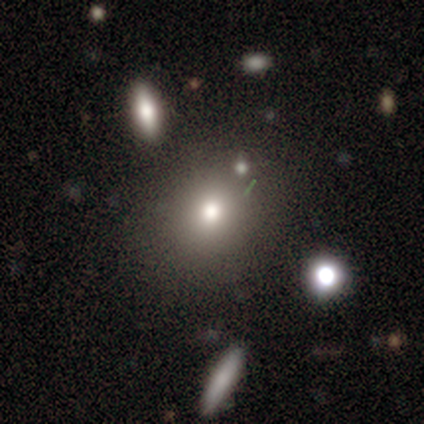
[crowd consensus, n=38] Smooth or featured? 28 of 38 (74%) said smooth. How rounded? 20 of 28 (71%) said round. Merging? 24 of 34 (71%) said none.